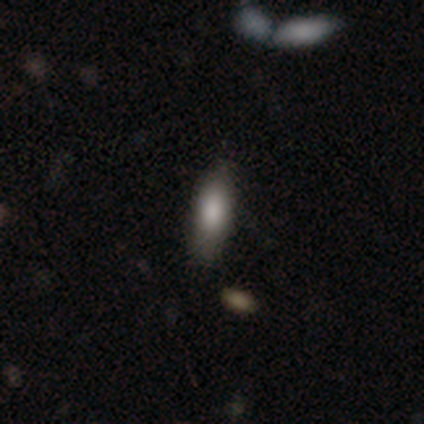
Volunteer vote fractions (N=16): Smooth or featured?
  - smooth: 69% *
  - featured or disk: 25%
  - star or artifact: 6%
How rounded?
  - in between: 73% *
  - cigar-shaped: 27%
  - round: 0%
Merging?
  - none: 73% *
  - minor disturbance: 27%
  - major disturbance: 0%
  - merger: 0%